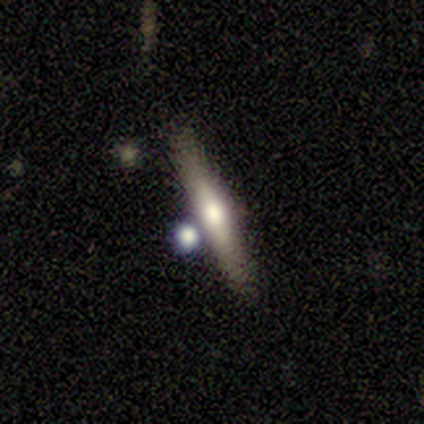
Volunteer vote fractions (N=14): Smooth or featured? featured or disk (64%)
Edge-on disk? yes (78%)
Edge-on bulge? rounded (86%)
Merging? none (100%)